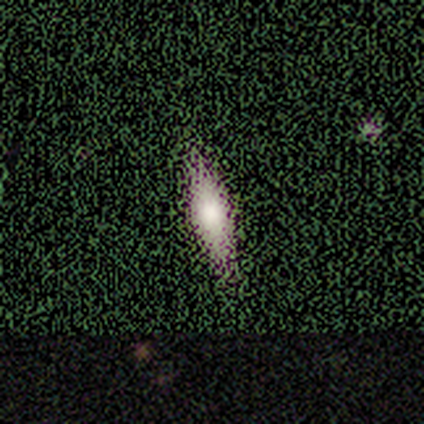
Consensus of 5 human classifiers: smooth_or_featured: smooth (p=0.40) [tied with: featured or disk p=0.40]
how_rounded: cigar-shaped (p=1.00)
merging: none (p=1.00)